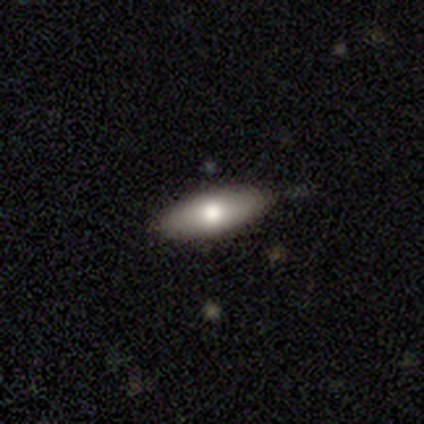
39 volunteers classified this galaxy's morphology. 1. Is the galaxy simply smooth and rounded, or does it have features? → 67% smooth, 31% featured or disk, 3% star or artifact.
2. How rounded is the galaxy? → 73% in between, 23% cigar-shaped, 4% round.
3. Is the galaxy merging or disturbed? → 92% none, 8% minor disturbance, 0% major disturbance, 0% merger.